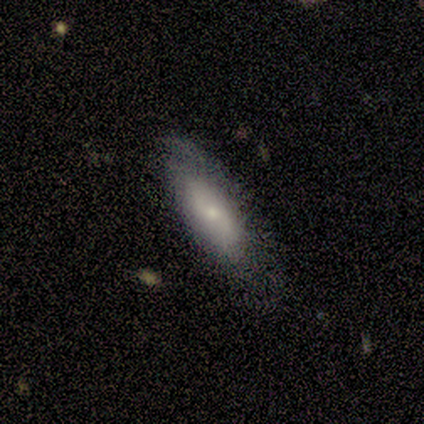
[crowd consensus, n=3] smooth_or_featured: smooth (p=0.33) [tied with: featured or disk p=0.33, star or artifact p=0.33]
how_rounded: in between (p=1.00)
merging: none (p=1.00)